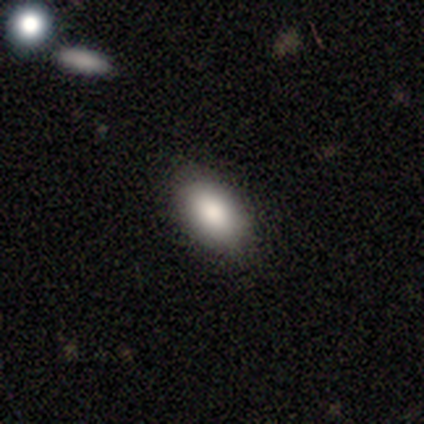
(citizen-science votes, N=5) smooth 80%, star or artifact 20%, featured or disk 0%. Down the decision tree: how rounded — in between (100%); merging — none (100%).